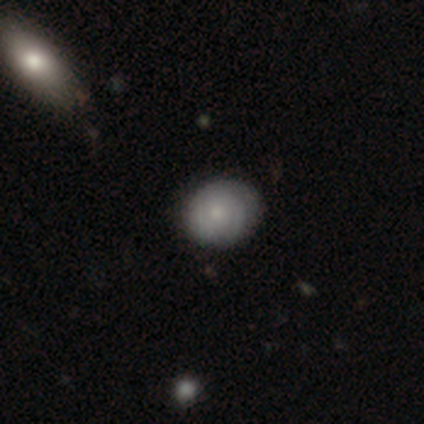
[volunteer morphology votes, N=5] Smooth or featured? featured or disk (60%)
Edge-on disk? no (100%)
Bar? no (100%)
Spiral arms? yes (100%)
Spiral winding? tight (100%)
Spiral arm count? 2 (67%)
Bulge size? moderate (100%)
Merging? none (80%)